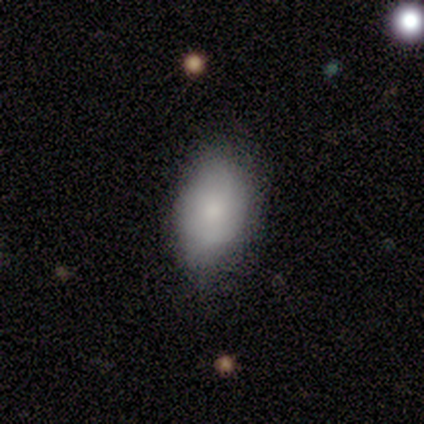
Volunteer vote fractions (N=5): Smooth or featured? 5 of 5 (100%) said smooth. How rounded? 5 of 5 (100%) said in between. Merging? 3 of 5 (60%) said minor disturbance.